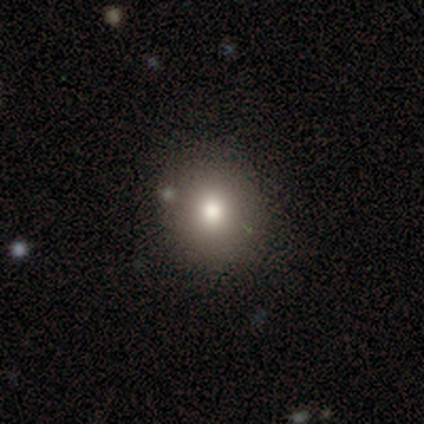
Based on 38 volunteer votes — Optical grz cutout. It shows a smooth galaxy with no disk features (82%) that is round (90%). Merging: none (81%).